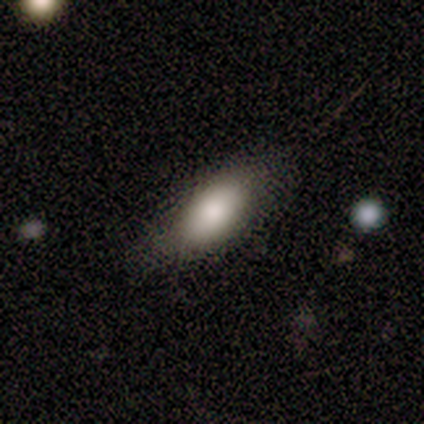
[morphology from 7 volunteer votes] Smooth or featured? 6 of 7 (86%) said smooth. How rounded? 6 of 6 (100%) said in between. Merging? 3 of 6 (50%) said none.